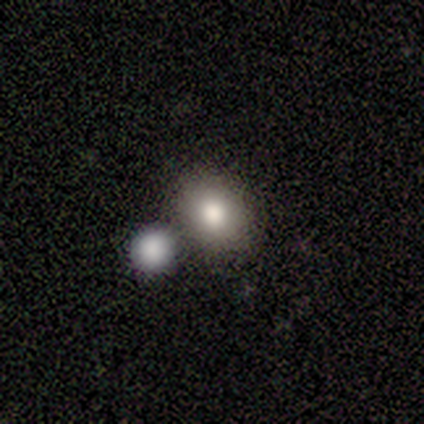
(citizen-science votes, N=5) This is likely a smooth galaxy (60%). How rounded: likely round (67%). Merging: likely none (60%).